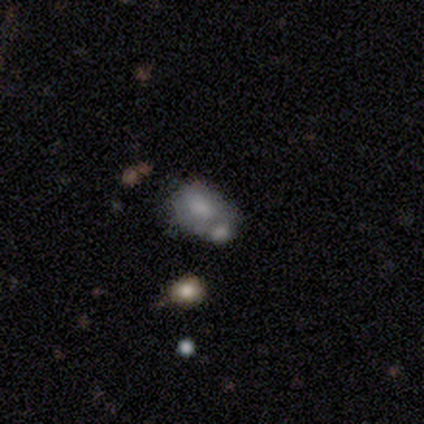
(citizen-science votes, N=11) A smooth galaxy with no disk features (55%) that is in between round and cigar-shaped (100%). Merging: merger (60%).